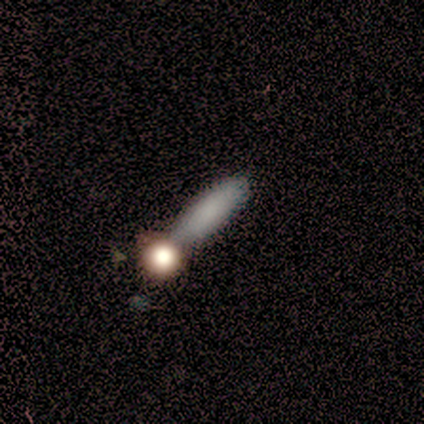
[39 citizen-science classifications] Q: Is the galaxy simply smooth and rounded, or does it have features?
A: smooth — 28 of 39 (72%).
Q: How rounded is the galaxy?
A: cigar-shaped — 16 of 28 (57%).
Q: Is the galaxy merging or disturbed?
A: none — 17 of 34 (50%).